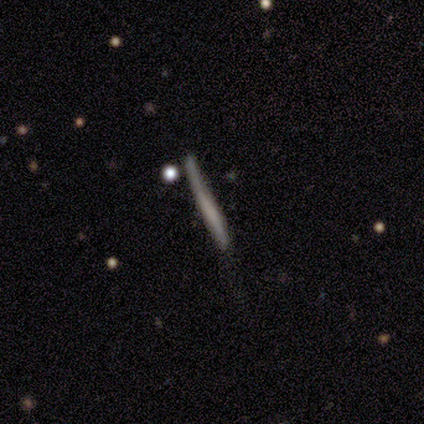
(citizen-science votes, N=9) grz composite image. It shows a featured or disk galaxy (56%) viewed edge-on (100%) with no central bulge (80%). Merging: none (56%).